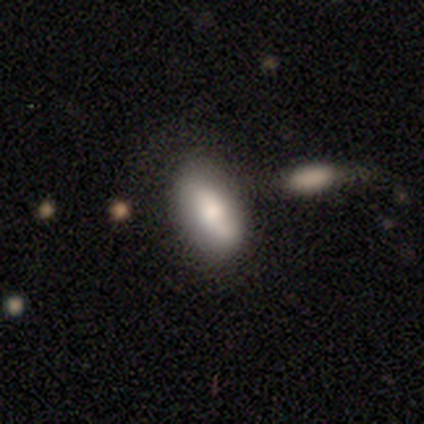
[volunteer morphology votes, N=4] type=smooth (75%); roundness=in between (100%); merging=none (75%).